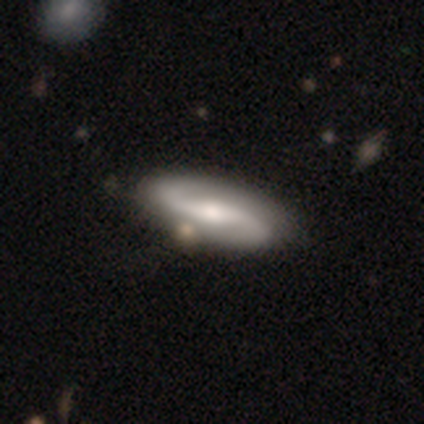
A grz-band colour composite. It shows a featured or disk galaxy (83%) with a strong bar (59%), 2 (97%) loose (52%) spiral arms (100%) and a moderate central bulge (66%). Merging: none (65%).